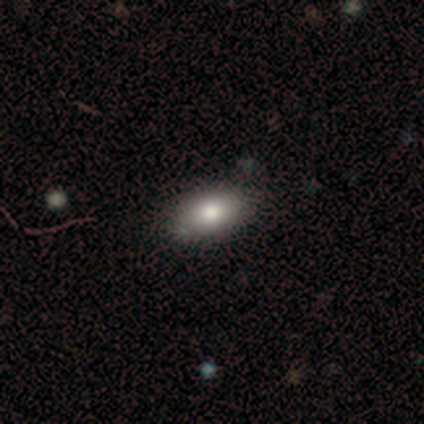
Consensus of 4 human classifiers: Smooth or featured: smooth — 75% (star or artifact — 25%)
How rounded: in between — 67% (cigar-shaped — 33%)
Merging: none — 33% (tied with minor disturbance — 33%; merger — 33%)